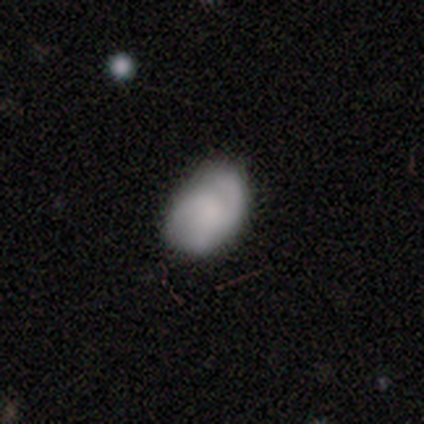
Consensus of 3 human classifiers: smooth 67%, featured or disk 33%, star or artifact 0%. Down the decision tree: how rounded — in between (100%); merging — none (33%, tied with minor disturbance and major disturbance).